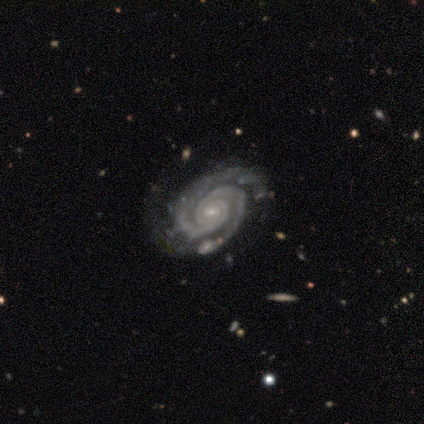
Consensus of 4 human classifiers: This appears to be a featured or disk galaxy (100%) with a weak bar (75%), 2 (75%) tight (100%) spiral arms (100%) and a small central bulge (100%). Merging: minor disturbance (75%).